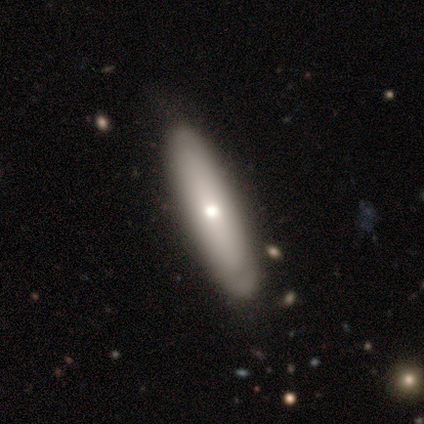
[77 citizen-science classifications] This appears to be a smooth galaxy with no disk features (61%) that is cigar-shaped (72%). Merging: none (83%).